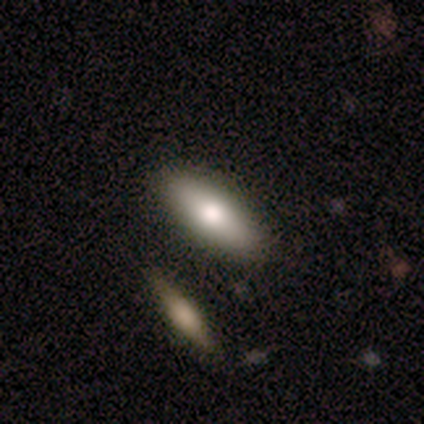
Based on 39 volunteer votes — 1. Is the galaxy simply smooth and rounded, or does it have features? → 67% smooth, 28% featured or disk, 5% star or artifact.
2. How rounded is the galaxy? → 81% in between, 19% cigar-shaped, 0% round.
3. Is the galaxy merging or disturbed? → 86% none, 5% minor disturbance, 5% major disturbance, 3% merger.